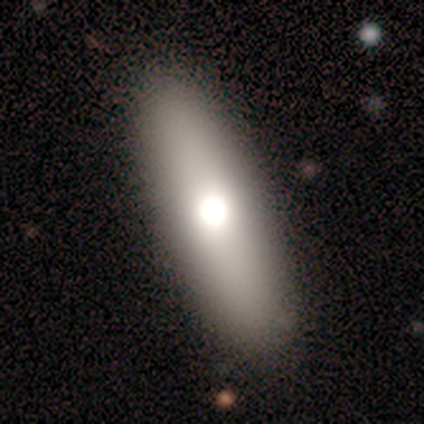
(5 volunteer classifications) Smooth or featured?
  - featured or disk: 60% *
  - smooth: 40%
  - star or artifact: 0%
Edge-on disk?
  - yes: 67% *
  - no: 33%
Edge-on bulge?
  - none: 50% * (tied)
  - rounded: 50% * (tied)
  - boxy: 0%
Merging?
  - none: 100% *
  - minor disturbance: 0%
  - major disturbance: 0%
  - merger: 0%